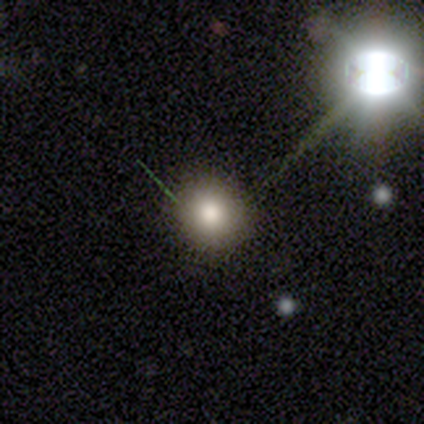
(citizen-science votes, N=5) smooth 60%, featured or disk 20%, star or artifact 20%. Down the decision tree: how rounded — round (100%); merging — none (50%).